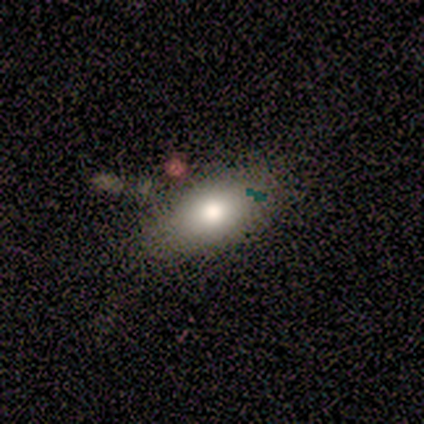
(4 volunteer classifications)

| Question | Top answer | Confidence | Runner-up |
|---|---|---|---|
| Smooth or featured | smooth | 75% | featured or disk (25%) |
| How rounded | in between | 100% | — |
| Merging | none | 50% | minor disturbance (25%) |